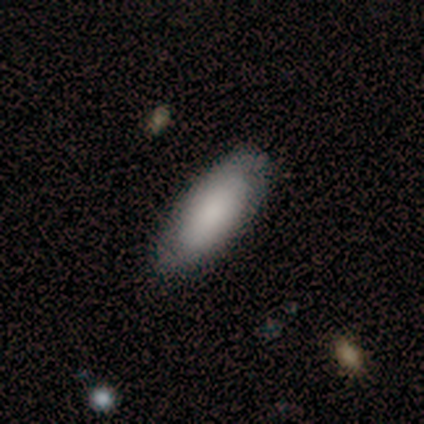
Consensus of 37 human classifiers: Smooth or featured? smooth (81%)
How rounded? in between (73%)
Merging? none (86%)